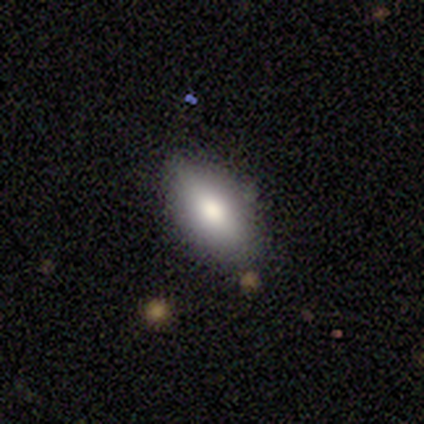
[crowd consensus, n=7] Volunteers were most divided on "how rounded": in between: 86%, round: 14%, cigar-shaped: 0%. More confident: smooth or featured — smooth (100%); merging — none (100%).